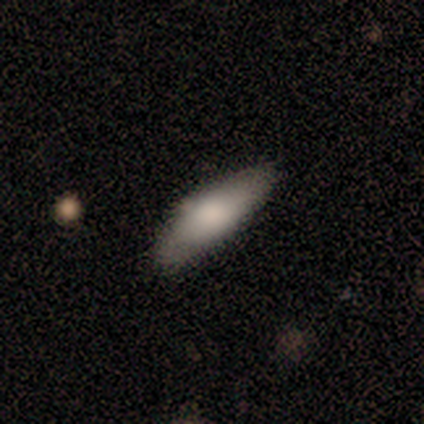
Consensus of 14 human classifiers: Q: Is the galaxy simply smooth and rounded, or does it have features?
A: smooth — 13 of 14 (93%).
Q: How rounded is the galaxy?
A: in between — 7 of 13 (54%).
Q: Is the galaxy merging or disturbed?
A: none — 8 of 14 (57%).